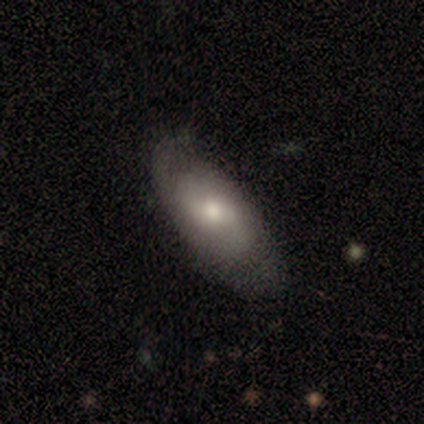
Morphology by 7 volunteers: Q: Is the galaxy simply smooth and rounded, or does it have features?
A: smooth — 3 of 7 (43%, tied with featured or disk).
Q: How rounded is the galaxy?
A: in between — 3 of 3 (100%).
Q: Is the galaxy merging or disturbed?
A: none — 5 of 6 (83%).